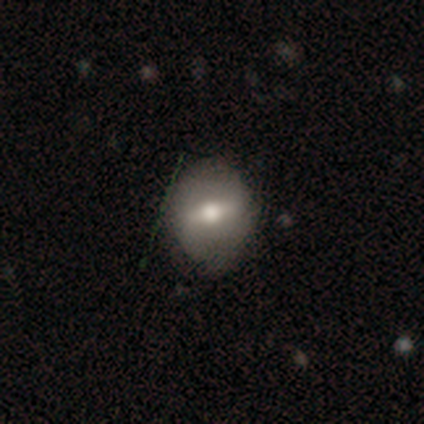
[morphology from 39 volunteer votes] This is possibly a featured or disk galaxy (59%). It is likely not viewed edge-on (78%). Bar: possibly strong (56%). Spiral arm pattern: likely no (72%). Central bulge: likely moderate (61%). Merging: clearly none (87%).